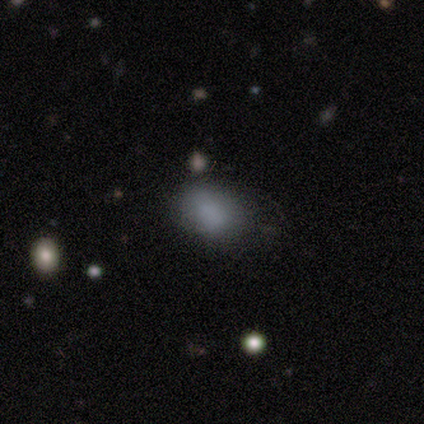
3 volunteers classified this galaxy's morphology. Q: Smooth or featured?
A: smooth (67%); runner-up: star or artifact (33%)
Q: How rounded?
A: in between (100%)
Q: Merging?
A: none (50%); tied with: minor disturbance (50%)